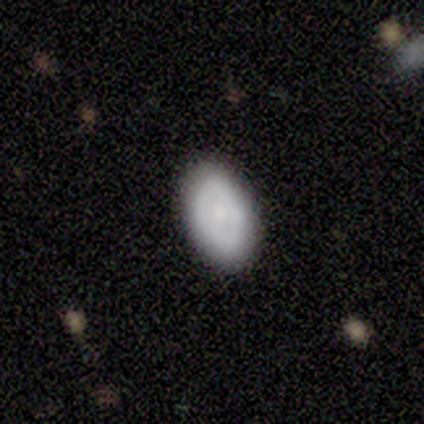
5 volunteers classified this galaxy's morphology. Smooth or featured? smooth (100%)
How rounded? in between (100%)
Merging? none (80%)